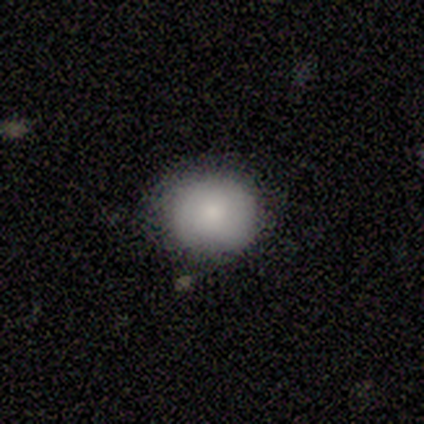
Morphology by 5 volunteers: smooth-or-featured: smooth: 80% | featured or disk: 20% | star or artifact: 0%
  how-rounded: round: 75% | in between: 25% | cigar-shaped: 0%
  merging: none: 100% | minor disturbance: 0% | major disturbance: 0% | merger: 0%